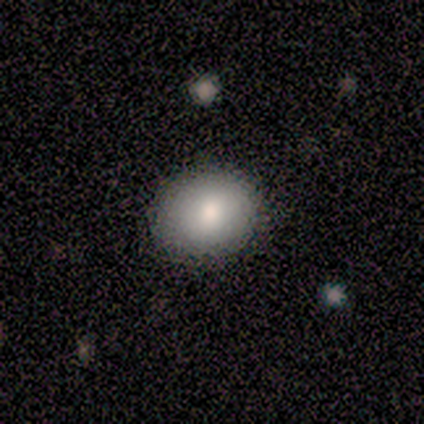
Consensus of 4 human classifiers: A smooth galaxy with no disk features (100%) that is round (50%, tied with in between). Merging: none (75%).